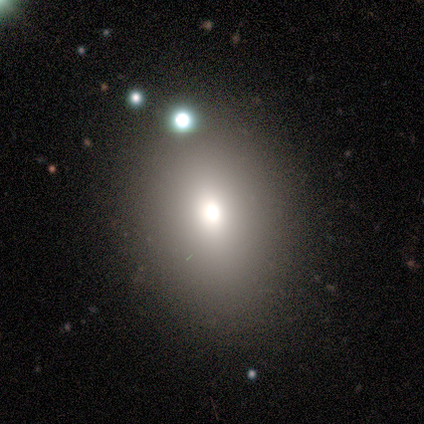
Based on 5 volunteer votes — Smooth or featured? 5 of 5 (100%) said smooth. How rounded? 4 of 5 (80%) said round. Merging? 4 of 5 (80%) said none.